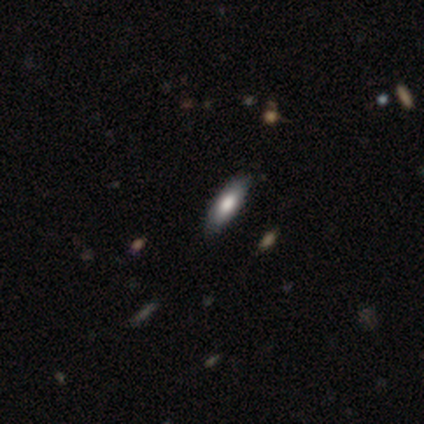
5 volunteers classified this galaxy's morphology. smooth 100%, featured or disk 0%, star or artifact 0%. Down the decision tree: how rounded — in between (80%); merging — none (80%).